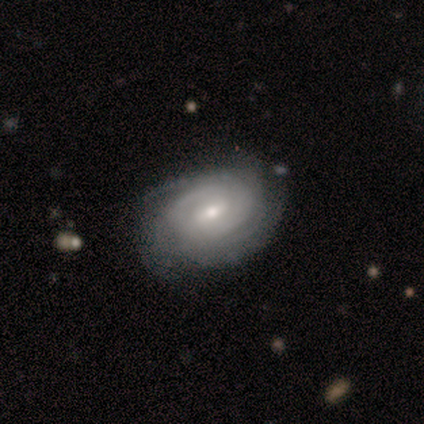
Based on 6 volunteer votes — featured or disk 83%, smooth 17%, star or artifact 0%. Down the decision tree: edge-on disk — no (100%); bar — weak (100%); spiral arms — yes (100%); spiral arm count — can't tell (80%); spiral winding — tight (60%); bulge size — moderate (60%); merging — none (83%).